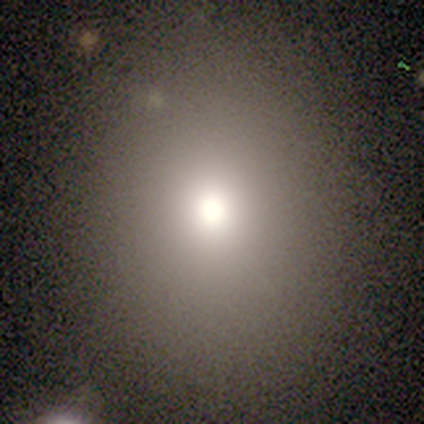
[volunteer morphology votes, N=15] smooth_or_featured: smooth (p=0.60) [alt: star or artifact p=0.27]
how_rounded: round (p=0.56) [alt: in between p=0.44]
merging: none (p=0.91) [alt: minor disturbance p=0.09]